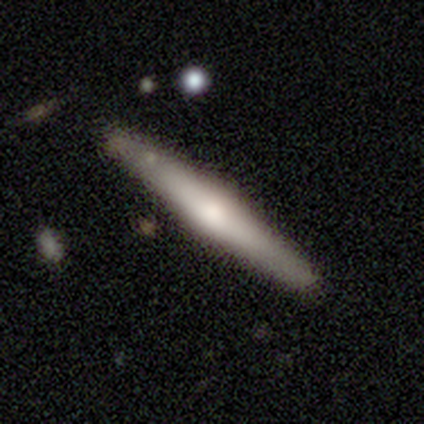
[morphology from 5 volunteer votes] This is clearly a featured or disk galaxy (100%). It is clearly viewed edge-on (100%). Edge-on bulge: clearly rounded (100%). Merging: clearly none (100%).